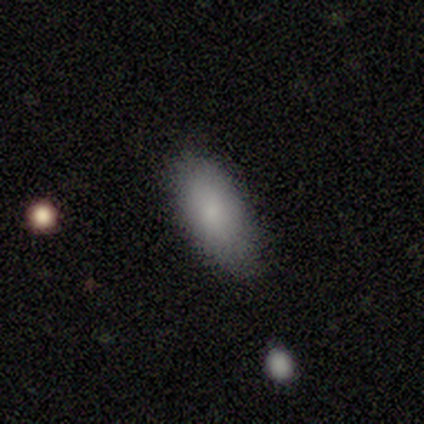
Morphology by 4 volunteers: Volunteers were most divided on "merging" (2-way tie): none: 50%, minor disturbance: 50%, major disturbance: 0%, merger: 0%. More confident: smooth or featured — smooth (100%); how rounded — in between (75%).